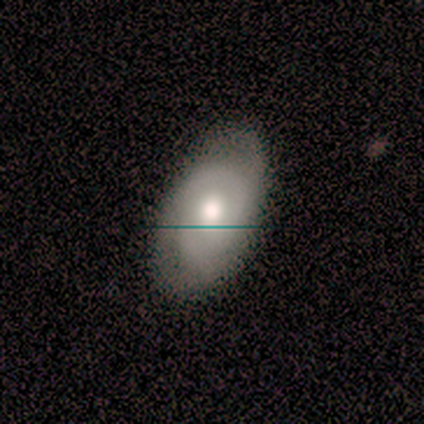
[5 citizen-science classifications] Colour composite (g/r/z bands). It shows a featured or disk galaxy (60%) with no bar (67%), 2 (67%) tight (100%) spiral arms (100%) and a moderate central bulge (100%). Merging: none (100%).